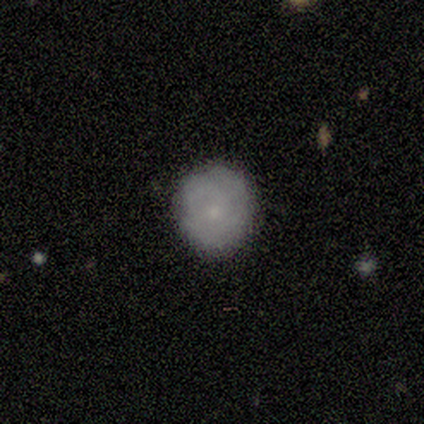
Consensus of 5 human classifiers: smooth 60%, featured or disk 40%, star or artifact 0%. Down the decision tree: how rounded — round (67%); merging — none (100%).